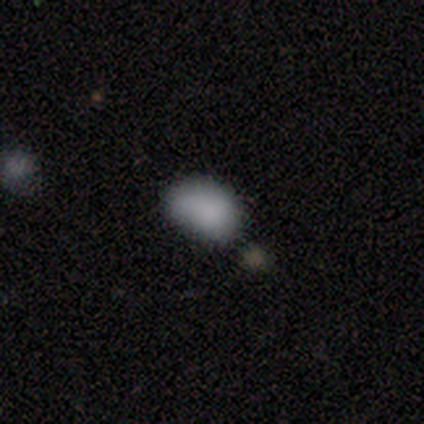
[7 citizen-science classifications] This is clearly a smooth galaxy (100%). How rounded: clearly in between (86%). Merging: possibly minor disturbance (57%).